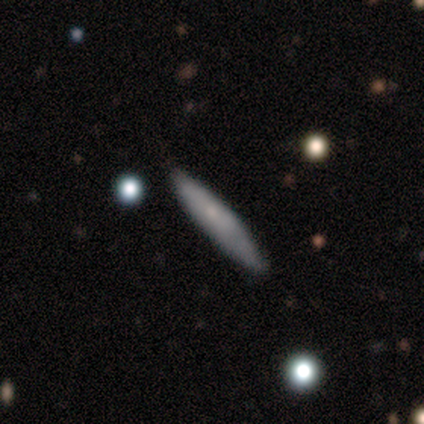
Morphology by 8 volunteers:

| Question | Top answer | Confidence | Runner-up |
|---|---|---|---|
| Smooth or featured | smooth | 50% | tied: featured or disk (50%) |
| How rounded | cigar-shaped | 100% | — |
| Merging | none | 75% | minor disturbance (12%) |